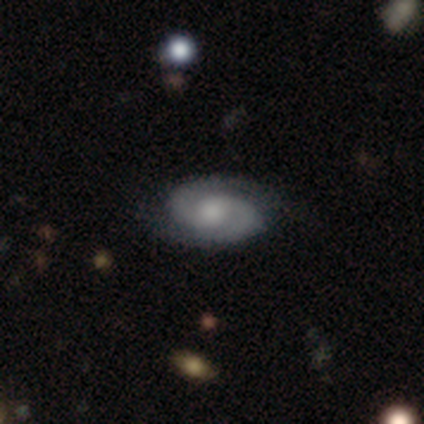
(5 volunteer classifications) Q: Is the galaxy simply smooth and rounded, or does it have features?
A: featured or disk — 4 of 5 (80%).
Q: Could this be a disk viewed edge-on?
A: no — 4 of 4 (100%).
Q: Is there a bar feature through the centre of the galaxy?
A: weak — 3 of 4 (75%).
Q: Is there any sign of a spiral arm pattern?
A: yes — 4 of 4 (100%).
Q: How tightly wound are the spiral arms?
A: tight — 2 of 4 (50%, tied with medium).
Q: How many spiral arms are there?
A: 2 — 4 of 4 (100%).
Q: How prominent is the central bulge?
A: moderate — 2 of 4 (50%).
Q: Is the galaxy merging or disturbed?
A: none — 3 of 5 (60%).